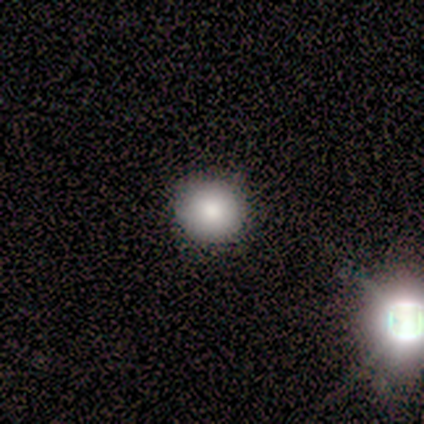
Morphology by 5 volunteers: smooth_or_featured: featured or disk (p=0.40) [tied with: star or artifact p=0.40]
disk_edge_on: no (p=1.00)
bar: no (p=1.00)
has_spiral_arms: no (p=1.00)
bulge_size: moderate (p=0.50) [tied with: small p=0.50]
merging: none (p=1.00)